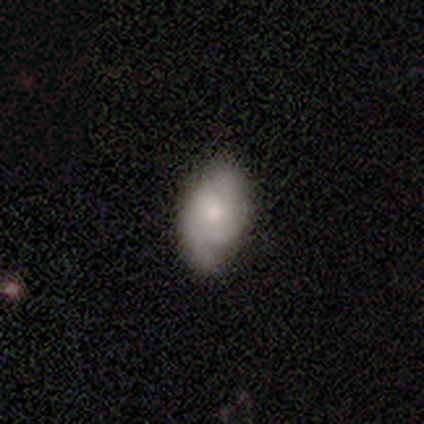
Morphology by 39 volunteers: Overall: smooth (56%; featured or disk 36%). How rounded: in between (82%). Merging: minor disturbance (47%; none 36%).